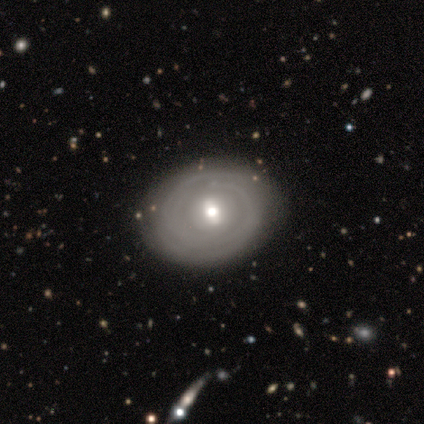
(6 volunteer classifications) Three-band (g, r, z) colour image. It shows a featured or disk galaxy (67%) with a weak bar (50%, tied with no), 2 (67%) medium (67%) spiral arms (75%) and a moderate central bulge (50%, tied with small). Merging: none (83%).